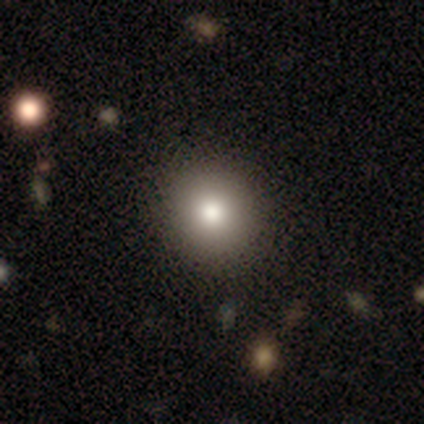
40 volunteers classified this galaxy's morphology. Smooth or featured? smooth (82%)
How rounded? round (94%)
Merging? none (73%)